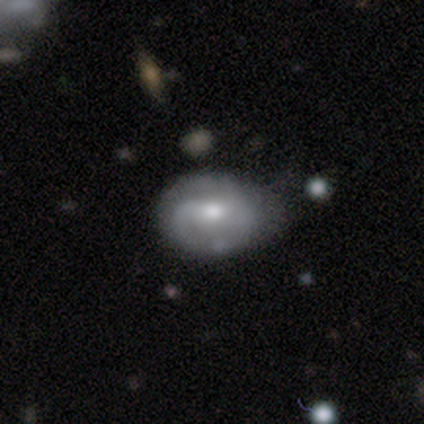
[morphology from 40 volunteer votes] Q: Smooth or featured?
A: featured or disk (82%); runner-up: smooth (12%)
Q: Edge-on disk?
A: no (97%); runner-up: yes (3%)
Q: Bar?
A: weak (38%); runner-up: strong (31%)
Q: Spiral arms?
A: yes (75%); runner-up: no (25%)
Q: Spiral winding?
A: medium (50%); runner-up: tight (29%)
Q: Spiral arm count?
A: 2 (62%); runner-up: can't tell (21%)
Q: Bulge size?
A: moderate (78%); runner-up: small (16%)
Q: Merging?
A: none (37%); runner-up: minor disturbance (29%)